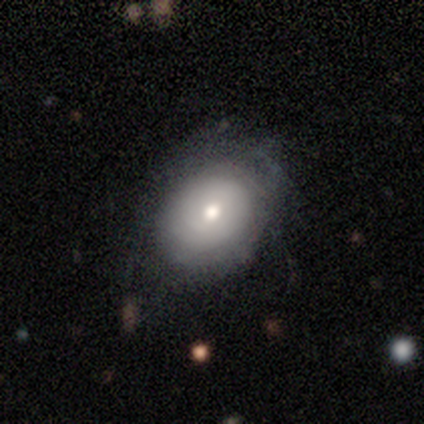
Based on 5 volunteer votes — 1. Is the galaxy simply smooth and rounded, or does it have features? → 60% featured or disk, 40% smooth, 0% star or artifact.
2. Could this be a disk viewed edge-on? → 100% no, 0% yes.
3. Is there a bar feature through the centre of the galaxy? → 67% no, 33% weak, 0% strong.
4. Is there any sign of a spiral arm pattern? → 67% no, 33% yes.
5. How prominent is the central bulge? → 100% moderate, 0% dominant, 0% large, 0% small, 0% none.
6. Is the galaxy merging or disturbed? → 60% minor disturbance, 20% none, 20% major disturbance, 0% merger.